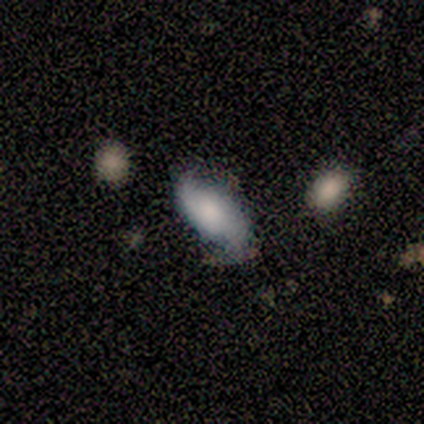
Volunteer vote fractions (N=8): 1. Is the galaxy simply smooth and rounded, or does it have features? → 50% smooth (tied), 50% featured or disk (tied), 0% star or artifact.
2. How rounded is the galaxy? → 100% in between, 0% round, 0% cigar-shaped.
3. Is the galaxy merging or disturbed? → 88% none, 12% minor disturbance, 0% major disturbance, 0% merger.